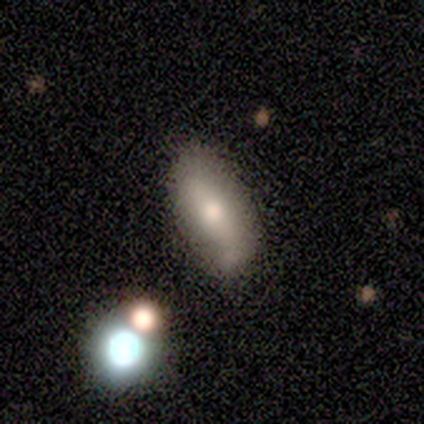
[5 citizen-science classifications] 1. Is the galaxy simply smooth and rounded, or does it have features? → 60% featured or disk, 20% smooth, 20% star or artifact.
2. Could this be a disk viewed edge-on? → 100% no, 0% yes.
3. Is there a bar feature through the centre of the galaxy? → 67% no, 33% strong, 0% weak.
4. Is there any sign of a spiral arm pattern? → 67% no, 33% yes.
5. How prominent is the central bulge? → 100% moderate, 0% dominant, 0% large, 0% small, 0% none.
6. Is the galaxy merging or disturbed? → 50% merger, 25% none, 25% minor disturbance, 0% major disturbance.